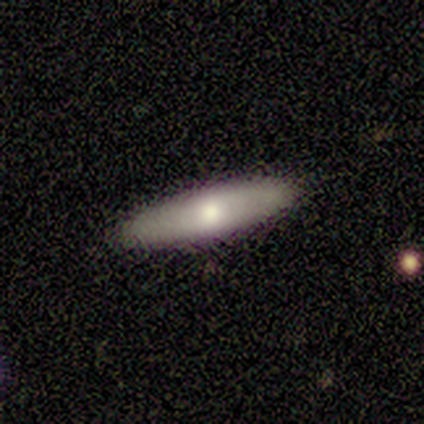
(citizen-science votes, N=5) smooth_or_featured: featured or disk (p=0.60) [alt: smooth p=0.20]
disk_edge_on: no (p=0.67) [alt: yes p=0.33]
bar: no (p=1.00)
has_spiral_arms: yes (p=0.50) [tied with: no p=0.50]
spiral_winding: loose (p=1.00)
spiral_arm_count: can't tell (p=1.00)
bulge_size: large (p=0.50) [tied with: moderate p=0.50]
merging: none (p=1.00)